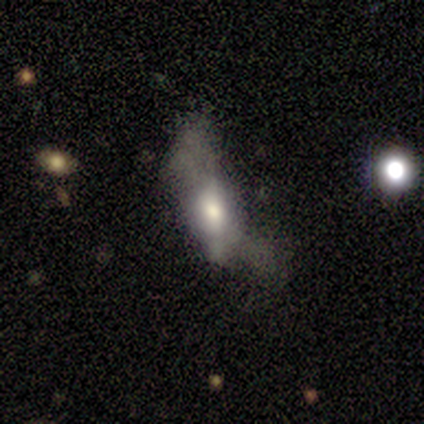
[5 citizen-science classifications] featured or disk 80%, star or artifact 20%, smooth 0%. Down the decision tree: edge-on disk — no (100%); bar — weak (50%); spiral arms — yes (50%, tied with no); spiral arm count — 2 (100%); spiral winding — loose (100%); bulge size — small (50%); merging — major disturbance (75%).